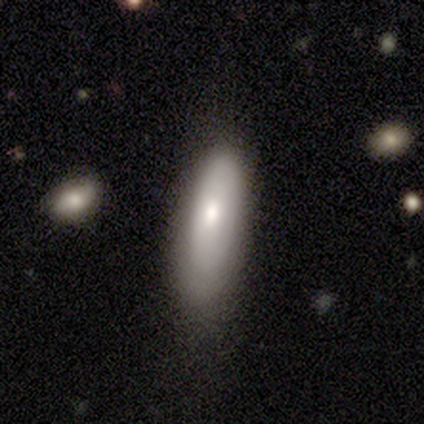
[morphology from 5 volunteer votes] Smooth or featured: smooth — 80% (featured or disk — 20%)
How rounded: in between — 100%
Merging: minor disturbance — 60% (none — 40%)